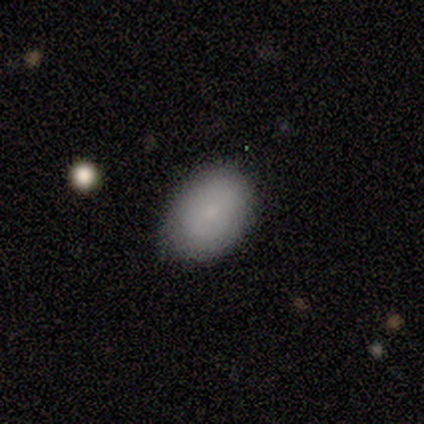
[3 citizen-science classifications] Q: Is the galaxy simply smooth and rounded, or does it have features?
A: smooth — 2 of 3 (67%).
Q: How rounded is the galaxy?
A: in between — 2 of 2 (100%).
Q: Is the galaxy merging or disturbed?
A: none — 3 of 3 (100%).